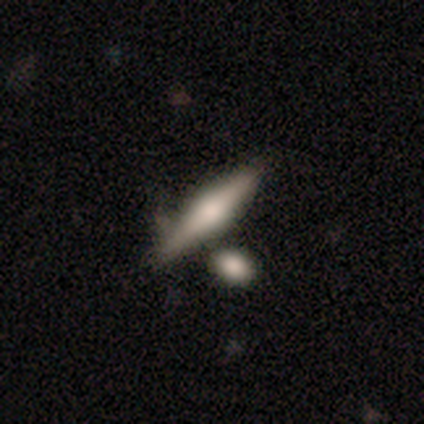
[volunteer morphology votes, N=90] smooth_or_featured: featured or disk (p=0.53) [alt: smooth p=0.42]
disk_edge_on: yes (p=0.88) [alt: no p=0.12]
edge_on_bulge: rounded (p=0.93) [alt: none p=0.05]
merging: none (p=0.62) [alt: merger p=0.20]